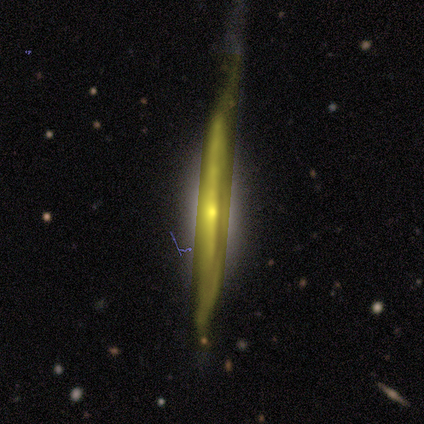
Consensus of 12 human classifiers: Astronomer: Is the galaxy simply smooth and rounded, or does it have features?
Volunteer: featured or disk — 75%.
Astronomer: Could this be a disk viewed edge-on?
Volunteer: yes — 89%.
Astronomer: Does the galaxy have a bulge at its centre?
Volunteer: none — 50%.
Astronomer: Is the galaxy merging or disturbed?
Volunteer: none — 42% (runner-up: minor disturbance, 33%).